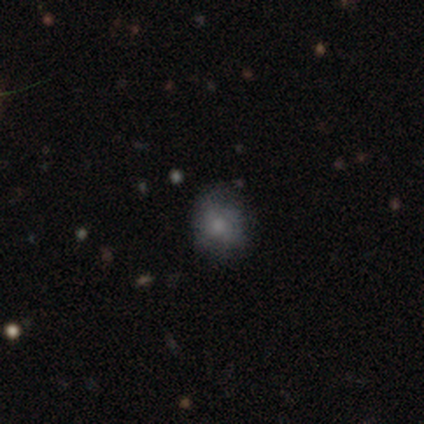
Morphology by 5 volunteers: type=smooth (80%); roundness=round (50%, tied with in between); merging=none (60%).